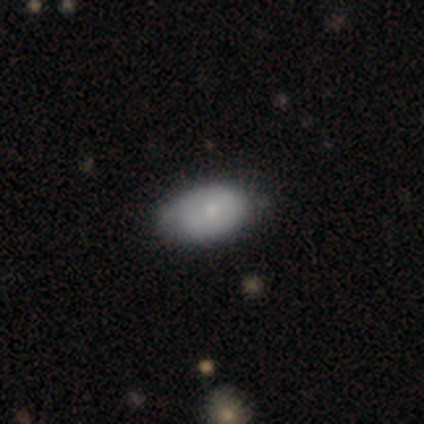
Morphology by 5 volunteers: Smooth or featured?
  - smooth: 60% *
  - featured or disk: 40%
  - star or artifact: 0%
How rounded?
  - in between: 100% *
  - round: 0%
  - cigar-shaped: 0%
Merging?
  - none: 80% *
  - minor disturbance: 20%
  - major disturbance: 0%
  - merger: 0%